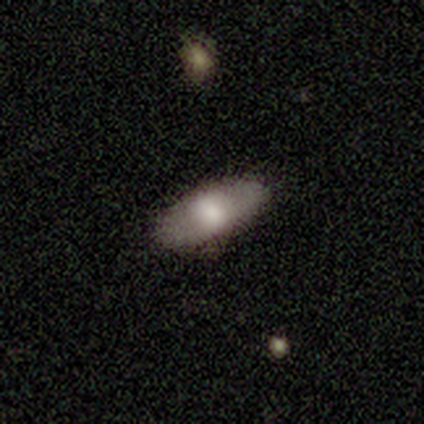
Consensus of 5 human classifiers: Overall: smooth (80%). How rounded: in between (100%). Merging: none (80%).